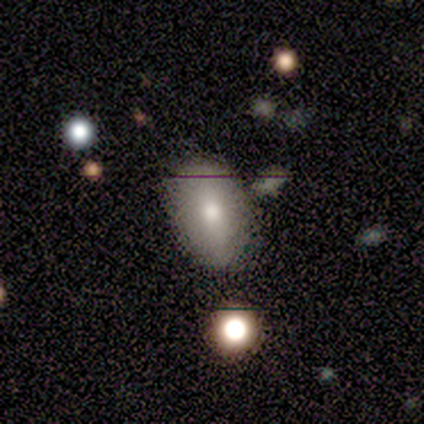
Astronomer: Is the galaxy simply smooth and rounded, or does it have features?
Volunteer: smooth — 60%.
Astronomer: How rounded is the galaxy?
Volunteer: in between — 100%.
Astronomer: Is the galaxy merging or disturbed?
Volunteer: none — 67%.